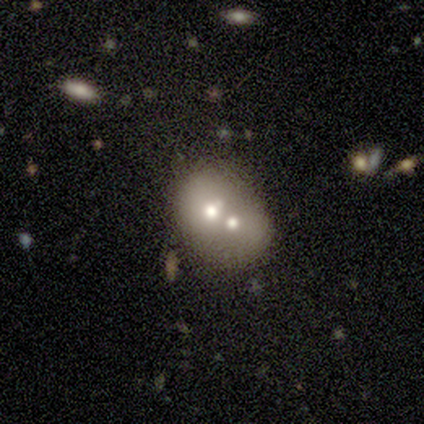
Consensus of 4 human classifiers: Smooth or featured? smooth (50%, tied with featured or disk)
How rounded? round (50%, tied with in between)
Merging? merger (75%)